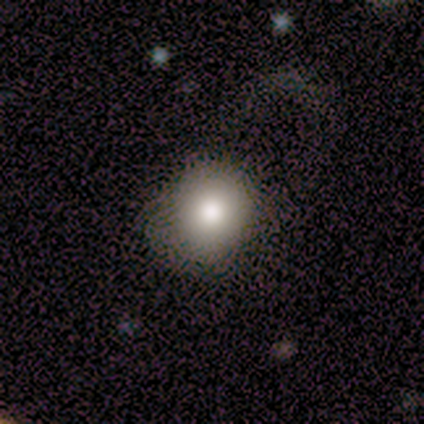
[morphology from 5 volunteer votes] This is clearly a smooth galaxy (100%). How rounded: clearly round (100%). Merging: likely none (60%).